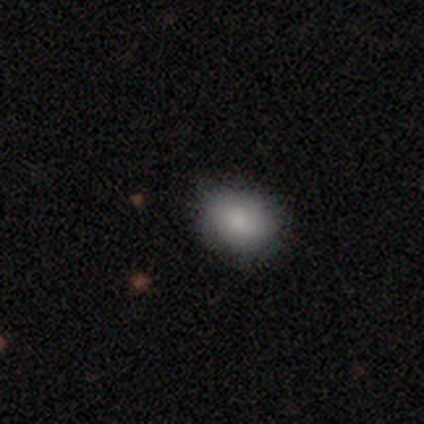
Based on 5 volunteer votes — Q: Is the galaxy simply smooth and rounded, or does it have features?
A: smooth — 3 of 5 (60%).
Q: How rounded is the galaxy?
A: in between — 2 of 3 (67%).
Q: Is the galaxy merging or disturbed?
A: none — 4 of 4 (100%).